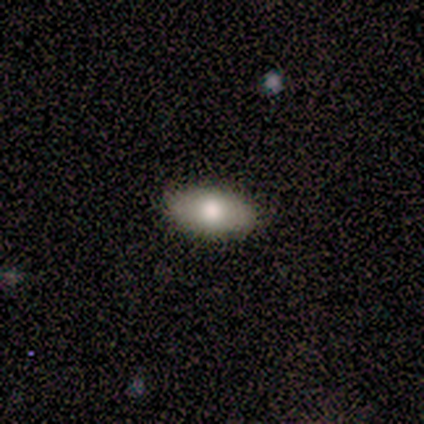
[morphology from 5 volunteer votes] Smooth or featured: smooth — 60% (featured or disk — 40%)
How rounded: in between — 100%
Merging: none — 100%